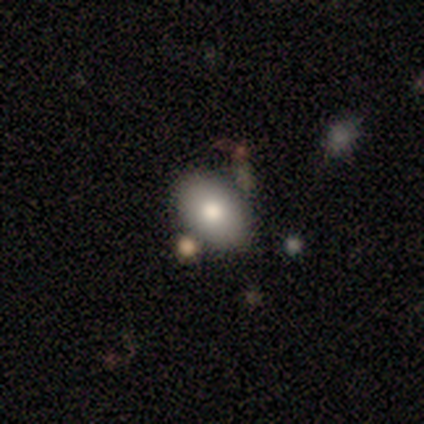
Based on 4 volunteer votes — This is clearly a smooth galaxy (100%). How rounded: likely in between (75%). Merging: possibly none (50%, tied with merger).